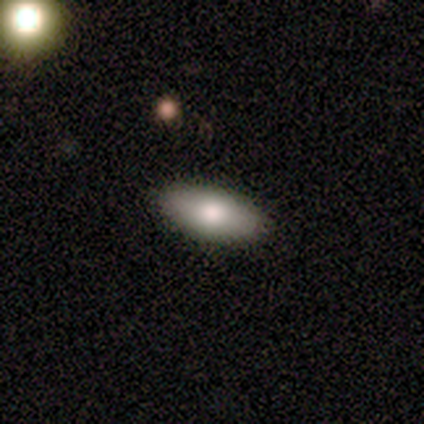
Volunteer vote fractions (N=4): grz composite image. It shows a smooth galaxy with no disk features (100%) that is in between round and cigar-shaped (75%). Merging: none (100%).